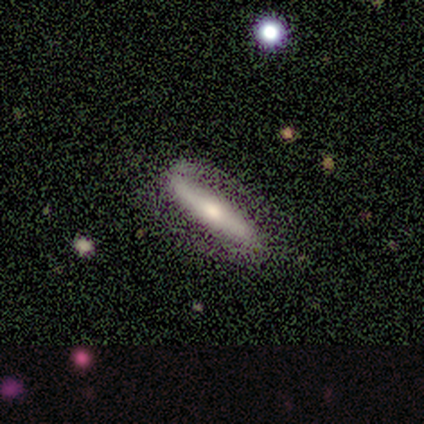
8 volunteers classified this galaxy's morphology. Smooth or featured? 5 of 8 (62%) said featured or disk. Edge-on disk? 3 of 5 (60%) said yes. Edge-on bulge? 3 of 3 (100%) said rounded. Merging? 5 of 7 (71%) said none.